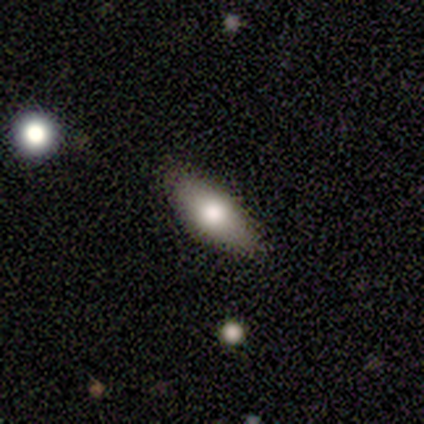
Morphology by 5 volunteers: Q: Smooth or featured?
A: smooth (100%)
Q: How rounded?
A: in between (100%)
Q: Merging?
A: none (100%)